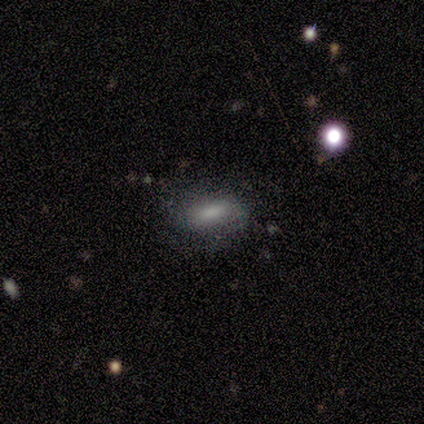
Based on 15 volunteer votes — Morphology: type=smooth (80%); roundness=in between (75%); merging=none (100%).